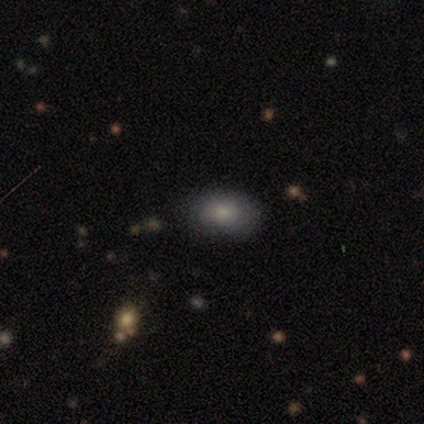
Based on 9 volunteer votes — Smooth or featured? smooth (78%)
How rounded? in between (100%)
Merging? none (86%)